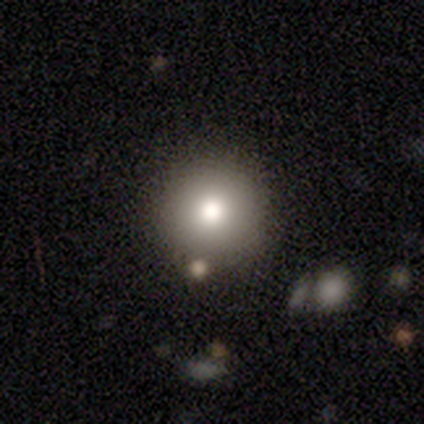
Smooth or featured? 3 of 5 (60%) said smooth. How rounded? 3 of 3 (100%) said round. Merging? 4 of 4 (100%) said none.